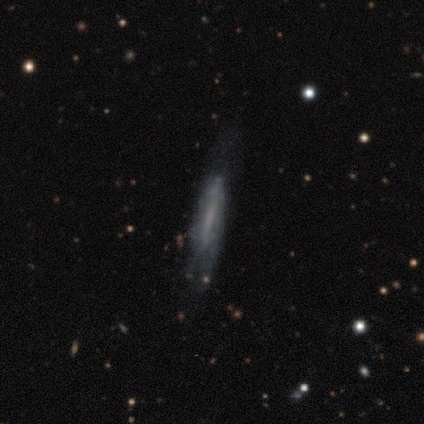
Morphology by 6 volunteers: A featured or disk galaxy (67%) viewed edge-on (75%) with a boxy central bulge (67%). Merging: minor disturbance (40%, tied with major disturbance).